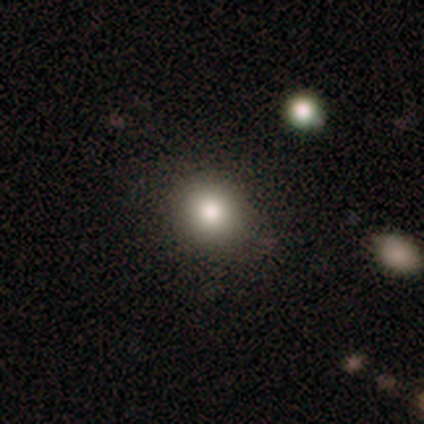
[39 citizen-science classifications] Volunteers were most divided on "smooth or featured": smooth: 77%, featured or disk: 13%, star or artifact: 10%. More confident: merging — none (89%); how rounded — round (87%).